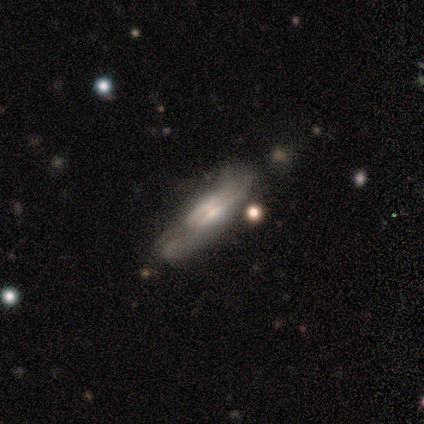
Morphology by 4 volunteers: This is clearly a featured or disk galaxy (100%). It is clearly viewed edge-on (100%). Edge-on bulge: possibly boxy (50%). Merging: clearly none (100%).